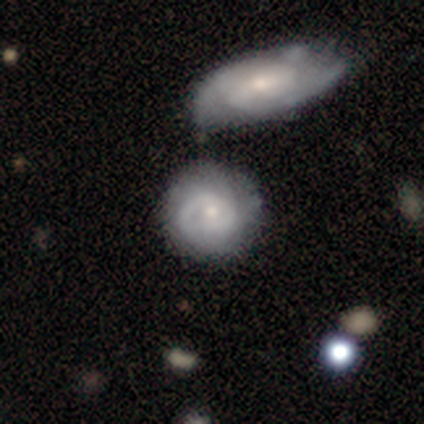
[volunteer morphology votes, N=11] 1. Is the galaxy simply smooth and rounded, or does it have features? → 82% featured or disk, 9% smooth, 9% star or artifact.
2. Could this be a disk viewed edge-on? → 100% no, 0% yes.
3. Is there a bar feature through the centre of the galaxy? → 89% no, 11% weak, 0% strong.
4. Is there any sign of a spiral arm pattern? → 78% yes, 22% no.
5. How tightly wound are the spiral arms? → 71% tight, 14% medium, 14% loose.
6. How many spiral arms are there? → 57% can't tell, 29% 1, 14% 2, 0% 3, 0% 4, 0% more than 4.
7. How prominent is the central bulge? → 78% small, 22% moderate, 0% dominant, 0% large, 0% none.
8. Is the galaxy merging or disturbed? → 60% none, 30% minor disturbance, 10% merger, 0% major disturbance.